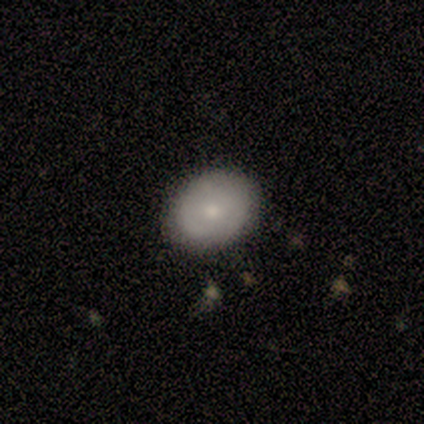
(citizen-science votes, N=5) Smooth or featured? smooth (80%)
How rounded? round (50%, tied with in between)
Merging? none (80%)